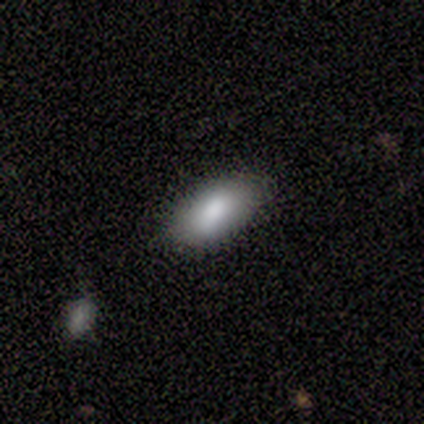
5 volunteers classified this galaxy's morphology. smooth-or-featured: smooth: 100% | featured or disk: 0% | star or artifact: 0%
  how-rounded: in between: 100% | round: 0% | cigar-shaped: 0%
  merging: none: 80% | minor disturbance: 20% | major disturbance: 0% | merger: 0%